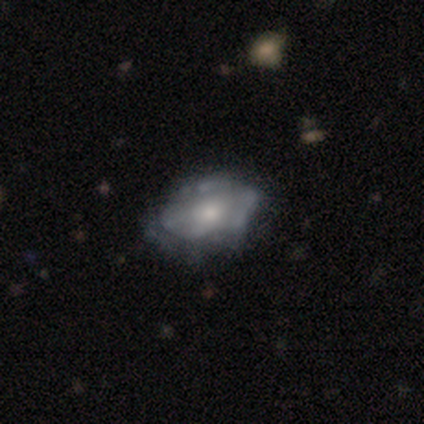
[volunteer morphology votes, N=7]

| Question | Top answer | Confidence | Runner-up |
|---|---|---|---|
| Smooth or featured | featured or disk | 57% | smooth (43%) |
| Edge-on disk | no | 100% | — |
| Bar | no | 100% | — |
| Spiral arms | no | 100% | — |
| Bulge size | small | 100% | — |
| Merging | none | 71% | minor disturbance (29%) |